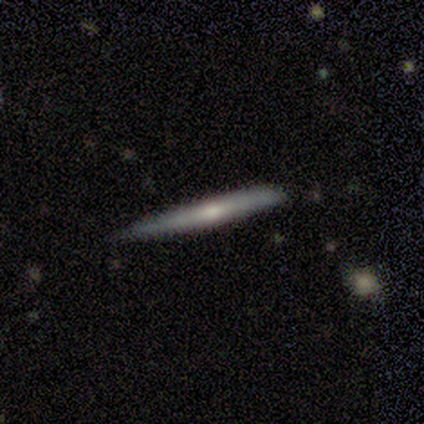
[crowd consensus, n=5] Overall: featured or disk (60%; smooth 40%). Edge-on disk: yes (100%). Edge-on bulge: rounded (100%). Merging: none (100%).